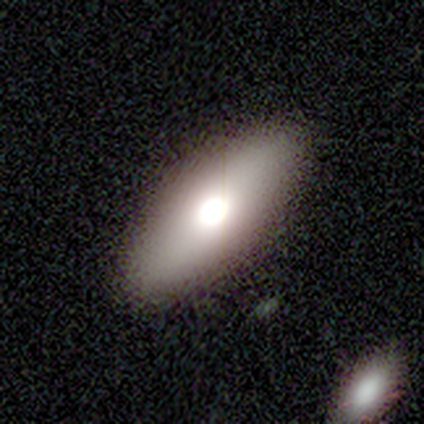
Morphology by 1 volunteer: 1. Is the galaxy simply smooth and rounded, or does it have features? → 100% smooth, 0% featured or disk, 0% star or artifact.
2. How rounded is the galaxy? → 100% in between, 0% round, 0% cigar-shaped.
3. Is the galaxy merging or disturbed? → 100% none, 0% minor disturbance, 0% major disturbance, 0% merger.